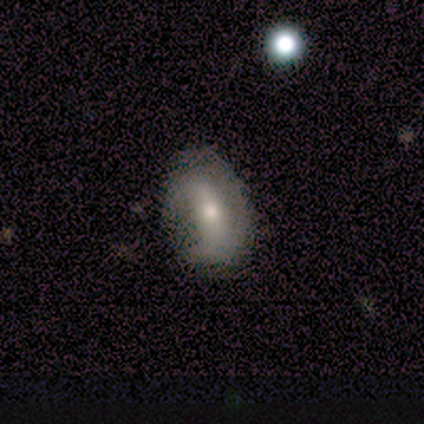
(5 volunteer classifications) Volunteers were most divided on "smooth or featured": smooth: 60%, featured or disk: 40%, star or artifact: 0%. More confident: how rounded — in between (67%); merging — none (60%).